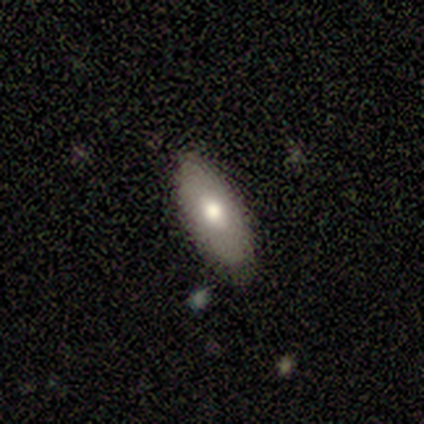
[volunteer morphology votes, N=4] A smooth galaxy with no disk features (75%) that is in between round and cigar-shaped (100%). Merging: none (75%).